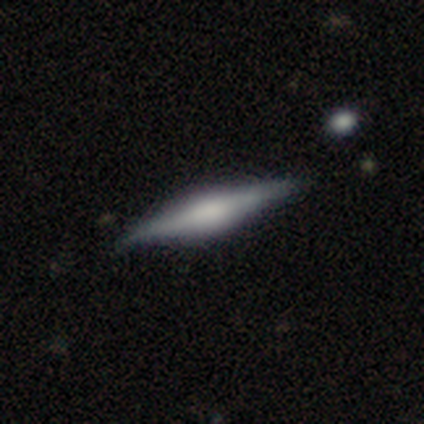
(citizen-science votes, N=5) Smooth or featured?
  - featured or disk: 80% *
  - smooth: 20%
  - star or artifact: 0%
Edge-on disk?
  - yes: 100% *
  - no: 0%
Edge-on bulge?
  - rounded: 100% *
  - boxy: 0%
  - none: 0%
Merging?
  - none: 80% *
  - minor disturbance: 20%
  - major disturbance: 0%
  - merger: 0%